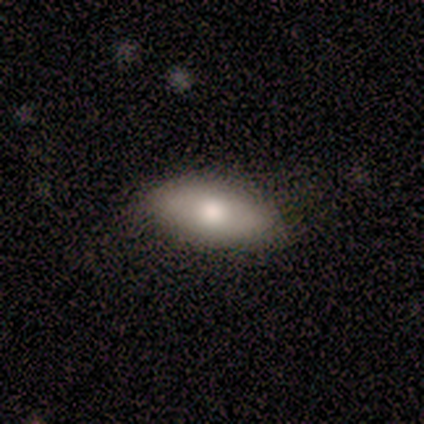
smooth 71%, featured or disk 29%, star or artifact 0%. Down the decision tree: how rounded — in between (100%); merging — none (100%).